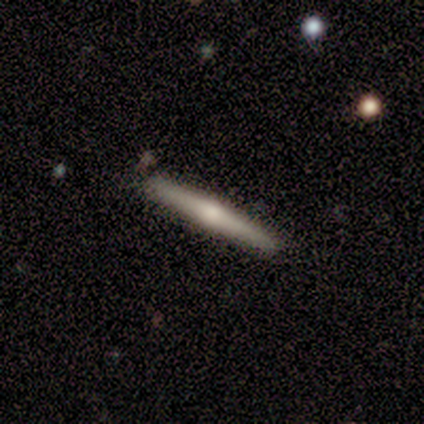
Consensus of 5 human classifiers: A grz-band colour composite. It shows a featured or disk galaxy (80%) viewed edge-on (100%) with a rounded central bulge (75%). Merging: none (100%).